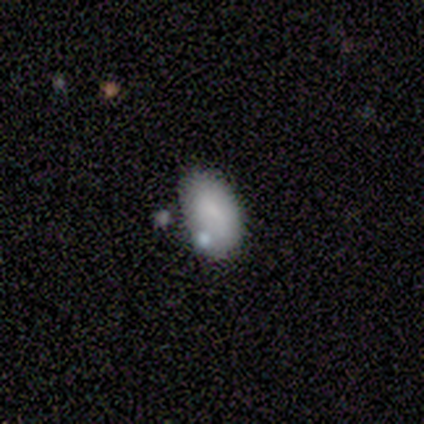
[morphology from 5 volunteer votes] This is clearly a smooth galaxy (100%). How rounded: clearly in between (100%). Merging: likely none (60%).